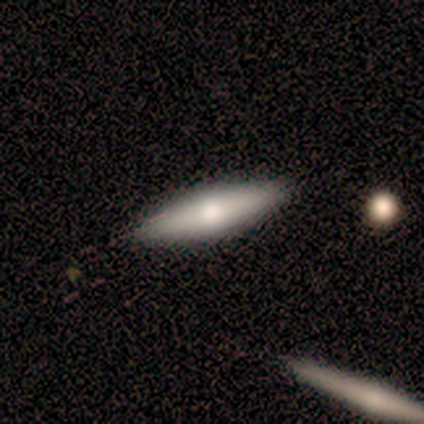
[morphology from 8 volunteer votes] Smooth or featured? smooth (62%)
How rounded? cigar-shaped (60%)
Merging? none (100%)